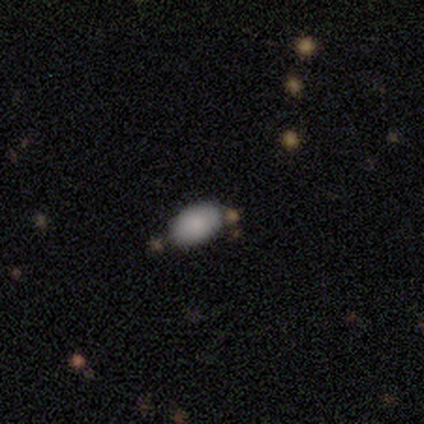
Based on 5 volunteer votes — Smooth or featured? smooth (80%)
How rounded? in between (100%)
Merging? none (100%)